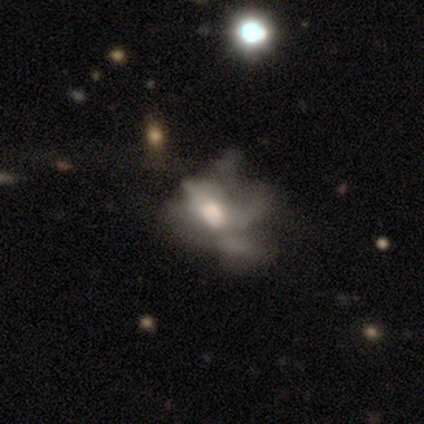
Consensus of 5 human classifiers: Overall: smooth (40%, tied with star or artifact). How rounded: in between (100%). Merging: none (33%, tied with major disturbance and merger).